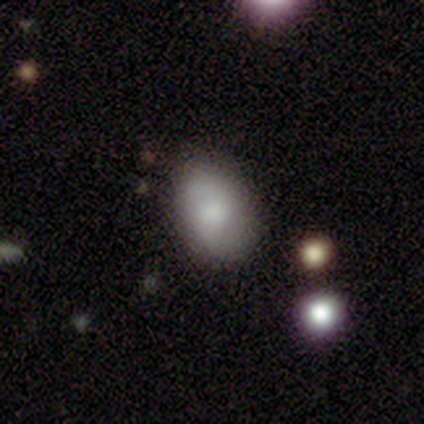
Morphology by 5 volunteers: This appears to be a smooth galaxy with no disk features (60%) that is in between round and cigar-shaped (100%). Merging: none (80%).